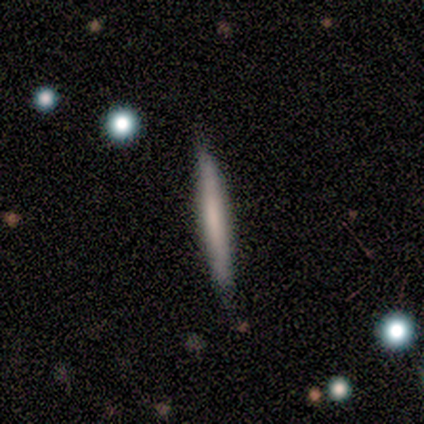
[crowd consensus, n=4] Smooth or featured?
  - smooth: 100% *
  - featured or disk: 0%
  - star or artifact: 0%
How rounded?
  - cigar-shaped: 100% *
  - round: 0%
  - in between: 0%
Merging?
  - none: 75% *
  - minor disturbance: 25%
  - major disturbance: 0%
  - merger: 0%